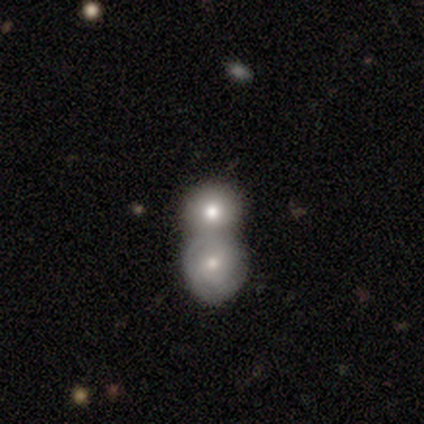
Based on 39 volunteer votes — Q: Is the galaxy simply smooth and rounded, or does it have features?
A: smooth — 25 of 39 (64%).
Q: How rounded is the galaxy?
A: round — 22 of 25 (88%).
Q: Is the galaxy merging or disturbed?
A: merger — 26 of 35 (74%).